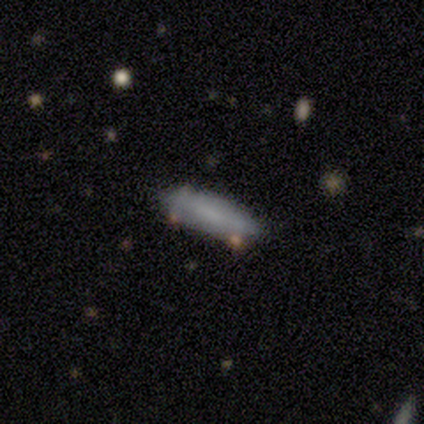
Smooth or featured? smooth (80%)
How rounded? cigar-shaped (75%)
Merging? none (100%)